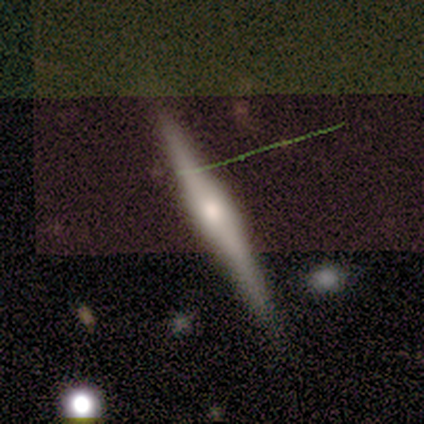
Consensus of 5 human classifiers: Volunteers were most divided on "edge-on bulge": rounded: 80%, boxy: 20%, none: 0%. More confident: smooth or featured — featured or disk (100%); edge-on disk — yes (100%); merging — none (80%).